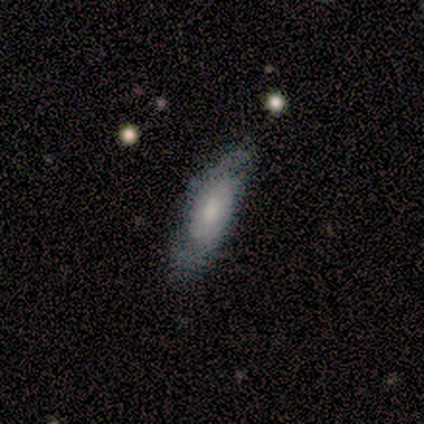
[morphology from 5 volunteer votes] Smooth or featured? smooth (40%, tied with featured or disk)
How rounded? in between (50%, tied with cigar-shaped)
Merging? none (100%)